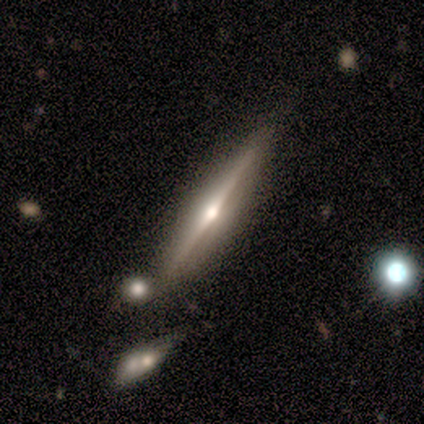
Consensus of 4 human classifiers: smooth_or_featured: featured or disk (p=0.75) [alt: smooth p=0.25]
disk_edge_on: yes (p=1.00)
edge_on_bulge: rounded (p=1.00)
merging: none (p=0.75) [alt: minor disturbance p=0.25]